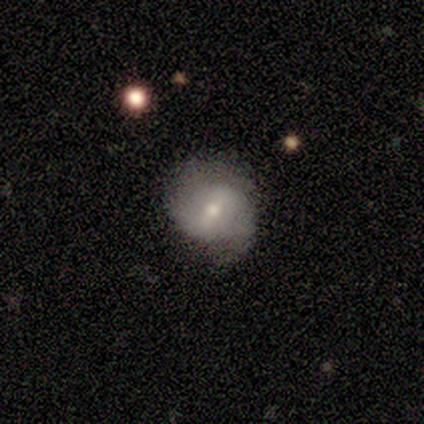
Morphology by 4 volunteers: smooth_or_featured: featured or disk (p=0.50) [alt: smooth p=0.25]
disk_edge_on: yes (p=0.50) [tied with: no p=0.50]
edge_on_bulge: boxy (p=1.00)
merging: major disturbance (p=0.67) [alt: none p=0.33]